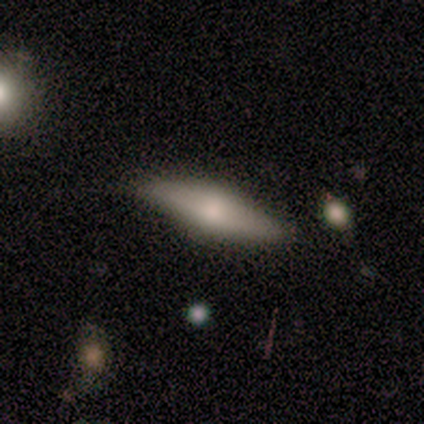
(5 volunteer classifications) Volunteers were most divided on "edge-on bulge": rounded: 67%, boxy: 33%, none: 0%. More confident: smooth or featured — featured or disk (80%); merging — none (80%); edge-on disk — yes (75%).